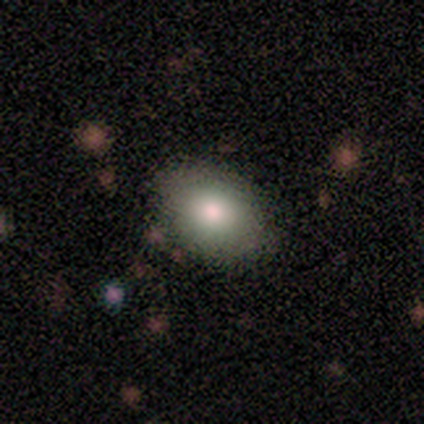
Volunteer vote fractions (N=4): Smooth or featured?
  - smooth: 75% *
  - featured or disk: 25%
  - star or artifact: 0%
How rounded?
  - in between: 100% *
  - round: 0%
  - cigar-shaped: 0%
Merging?
  - none: 75% *
  - minor disturbance: 25%
  - major disturbance: 0%
  - merger: 0%